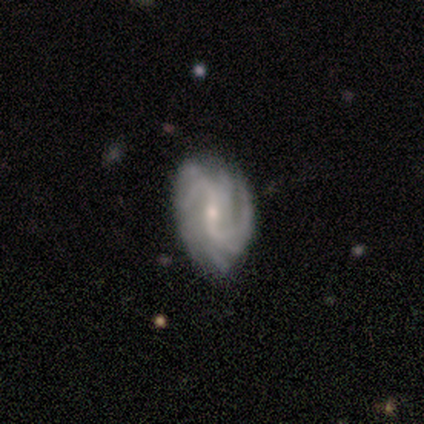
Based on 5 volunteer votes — Smooth or featured: featured or disk — 100%
Edge-on disk: no — 100%
Bar: weak — 60% (strong — 40%)
Spiral arms: yes — 100%
Spiral winding: medium — 80% (loose — 20%)
Spiral arm count: can't tell — 40% (2 — 20%)
Bulge size: small — 60% (moderate — 40%)
Merging: minor disturbance — 60% (none — 40%)